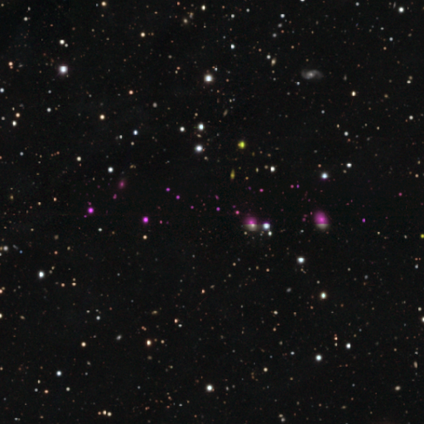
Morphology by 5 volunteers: This is clearly a star or artifact rather than a galaxy (80%).